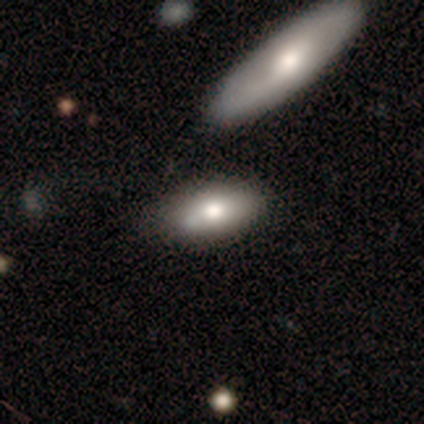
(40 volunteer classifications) This appears to be a smooth galaxy with no disk features (72%) that is in between round and cigar-shaped (83%). Merging: none (72%).